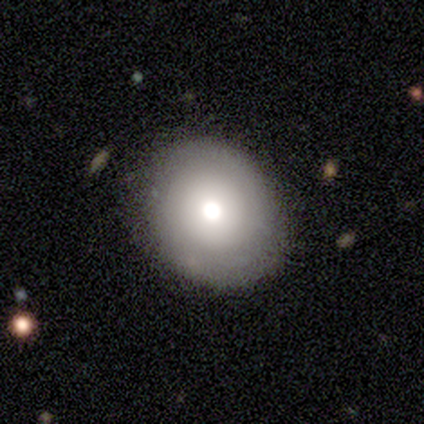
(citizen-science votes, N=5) A smooth galaxy with no disk features (80%) that is round (75%).

Vote fractions:
- Smooth or featured? smooth: 80% / featured or disk: 20% / star or artifact: 0%
- How rounded? round: 75% / in between: 25% / cigar-shaped: 0%
- Merging? none: 60% / minor disturbance: 20% / major disturbance: 20% / merger: 0%